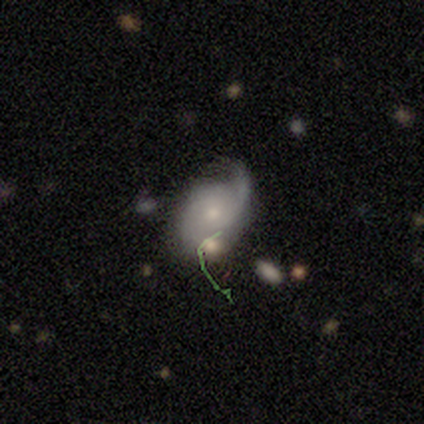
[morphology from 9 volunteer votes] Volunteers were most divided on "smooth or featured": featured or disk: 56%, smooth: 44%, star or artifact: 0%. More confident: edge-on disk — no (100%); bar — no (100%); spiral arms — yes (100%); spiral arm count — 2 (100%); spiral winding — medium (80%); bulge size — small (60%); merging — none (56%).